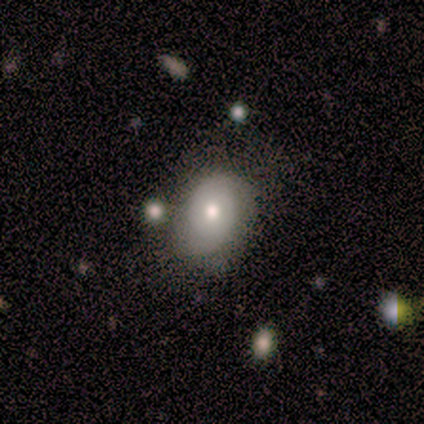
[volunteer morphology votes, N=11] Smooth or featured? smooth (55%)
How rounded? round (50%, tied with in between)
Merging? none (73%)